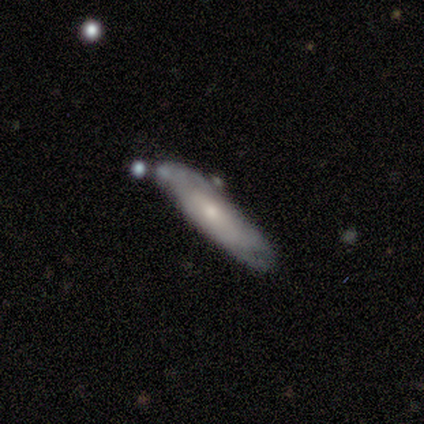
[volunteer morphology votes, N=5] Q: Smooth or featured?
A: featured or disk (100%)
Q: Edge-on disk?
A: yes (60%); runner-up: no (40%)
Q: Edge-on bulge?
A: rounded (67%); runner-up: none (33%)
Q: Merging?
A: none (40%); tied with: merger (40%)